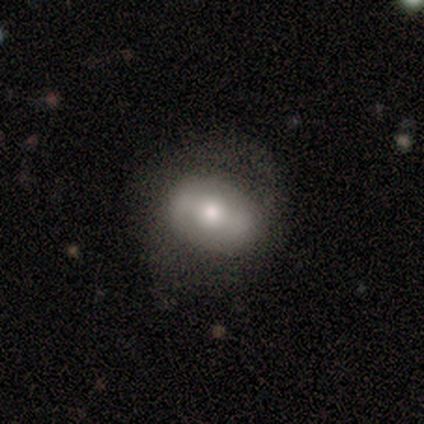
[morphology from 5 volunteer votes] This appears to be a smooth galaxy with no disk features (60%) that is in between round and cigar-shaped (100%). Merging: none (60%).